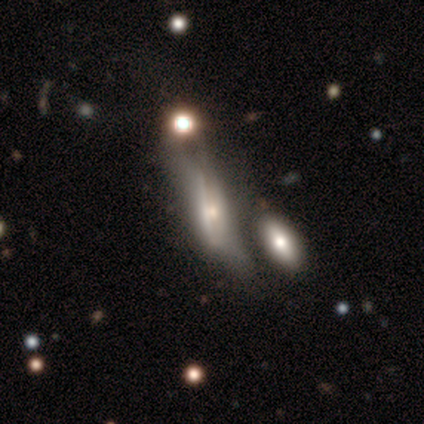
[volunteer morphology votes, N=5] featured or disk 60%, smooth 40%, star or artifact 0%. Down the decision tree: edge-on disk — no (67%); bar — no (100%); spiral arms — no (100%); bulge size — moderate (50%, tied with small); merging — merger (60%).